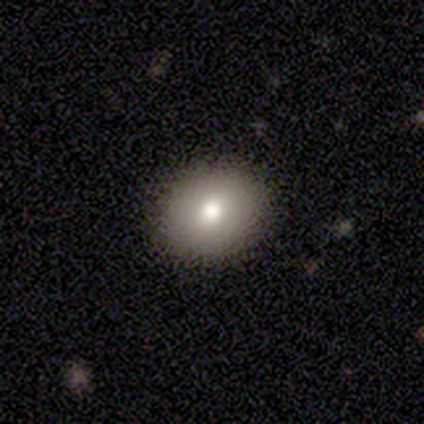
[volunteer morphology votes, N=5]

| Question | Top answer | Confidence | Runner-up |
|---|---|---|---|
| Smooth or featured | smooth | 60% | featured or disk (40%) |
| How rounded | in between | 67% | round (33%) |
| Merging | none | 100% | — |